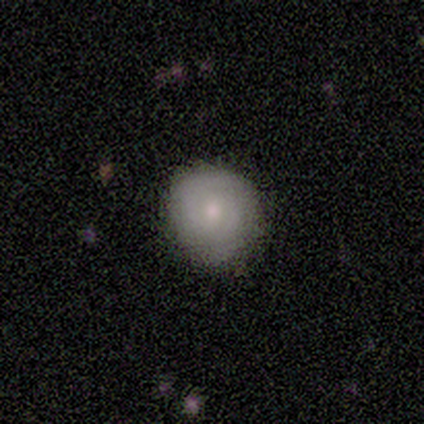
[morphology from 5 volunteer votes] smooth-or-featured: smooth: 40% (tied) | featured or disk: 40% (tied) | star or artifact: 20%
  how-rounded: round: 100% | in between: 0% | cigar-shaped: 0%
  merging: none: 75% | minor disturbance: 25% | major disturbance: 0% | merger: 0%